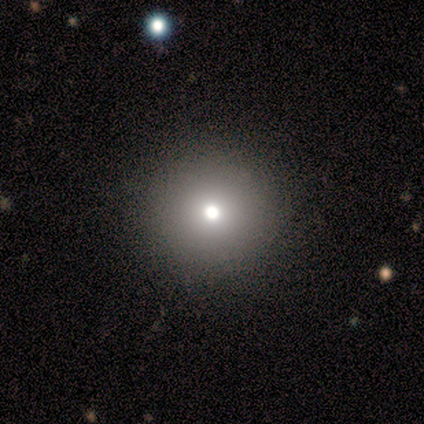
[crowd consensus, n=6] A smooth galaxy with no disk features (83%) that is round (100%).

Vote fractions:
- Smooth or featured? smooth: 83% / featured or disk: 17% / star or artifact: 0%
- How rounded? round: 100% / in between: 0% / cigar-shaped: 0%
- Merging? none: 100% / minor disturbance: 0% / major disturbance: 0% / merger: 0%